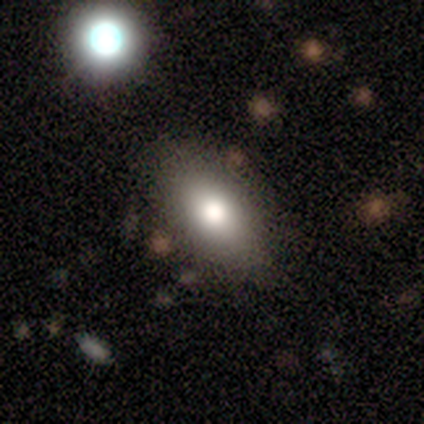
Volunteers were most divided on "merging": none: 67%, minor disturbance: 19%, major disturbance: 8%, merger: 6%. More confident: how rounded — in between (93%); smooth or featured — smooth (77%).